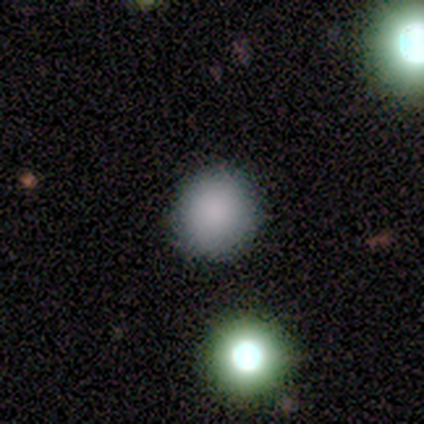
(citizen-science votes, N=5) Overall: smooth (80%). How rounded: round (100%). Merging: none (100%).